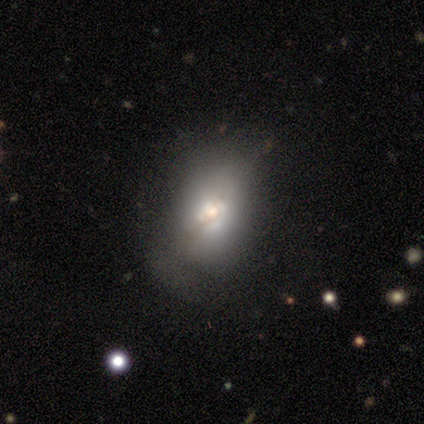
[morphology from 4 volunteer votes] Smooth or featured? featured or disk (75%)
Edge-on disk? no (67%)
Bar? weak (50%, tied with no)
Spiral arms? yes (50%, tied with no)
Spiral winding? tight (100%)
Spiral arm count? can't tell (100%)
Bulge size? large (50%, tied with small)
Merging? major disturbance (50%)